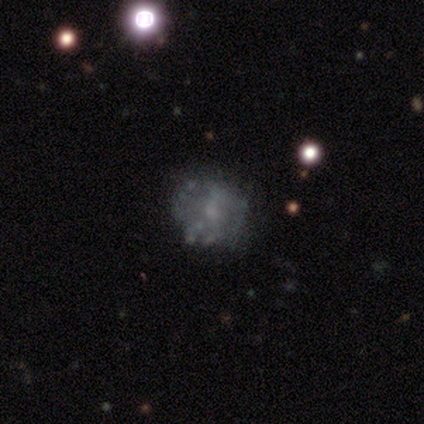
This is likely a featured or disk galaxy (60%). It is clearly not viewed edge-on (100%). Bar: likely no (67%). Spiral arm pattern: likely no (67%). Central bulge: likely moderate (67%). Merging: marginally none (40%, tied with major disturbance).